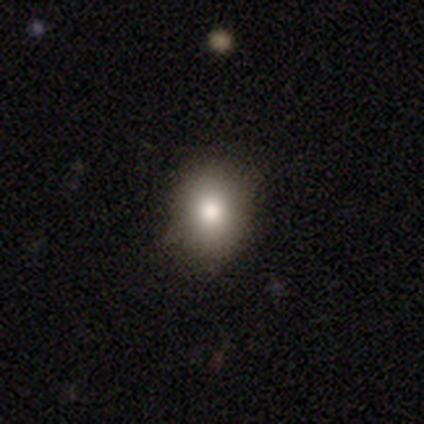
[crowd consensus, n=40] This is clearly a smooth galaxy (80%). How rounded: possibly round (50%, tied with in between). Merging: clearly none (95%).